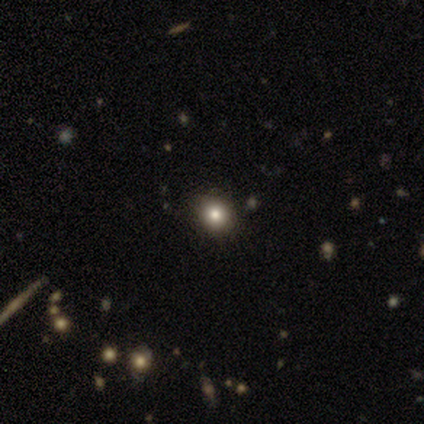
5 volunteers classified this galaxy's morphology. Smooth or featured: smooth — 80% (star or artifact — 20%)
How rounded: round — 75% (in between — 25%)
Merging: none — 100%